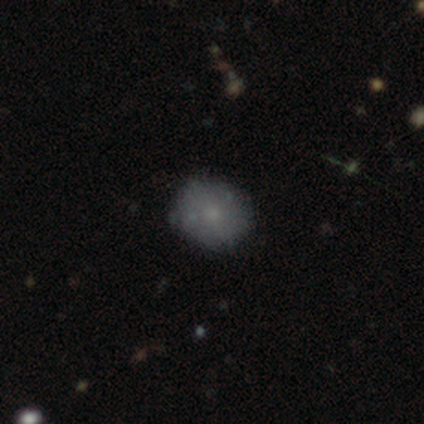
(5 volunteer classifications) smooth-or-featured: smooth: 40% (tied) | star or artifact: 40% (tied) | featured or disk: 20%
  how-rounded: round: 100% | in between: 0% | cigar-shaped: 0%
  merging: none: 100% | minor disturbance: 0% | major disturbance: 0% | merger: 0%